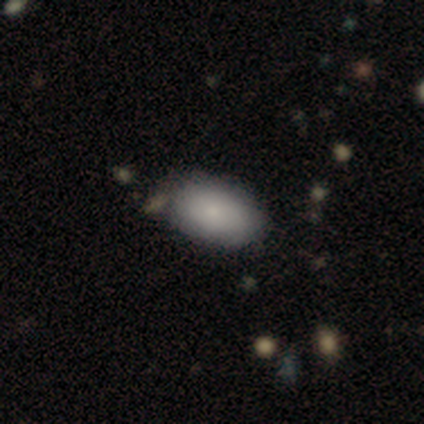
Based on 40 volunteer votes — A smooth galaxy with no disk features (80%) that is in between round and cigar-shaped (97%).

Vote fractions:
- Smooth or featured? smooth: 80% / featured or disk: 15% / star or artifact: 5%
- How rounded? in between: 97% / round: 3% / cigar-shaped: 0%
- Merging? none: 42% / minor disturbance: 13% / merger: 8% / major disturbance: 5%